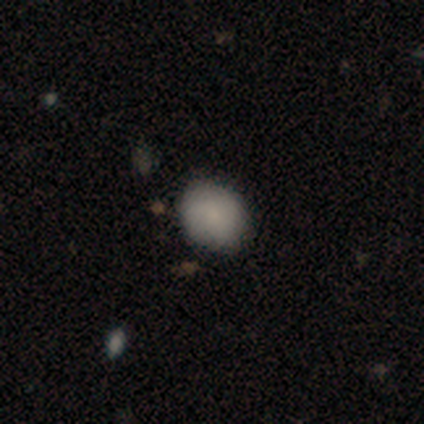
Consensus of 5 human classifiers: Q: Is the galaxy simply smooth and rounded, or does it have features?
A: smooth — 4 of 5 (80%).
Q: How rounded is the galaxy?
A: round — 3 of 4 (75%).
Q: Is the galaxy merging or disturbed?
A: none — 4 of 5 (80%).